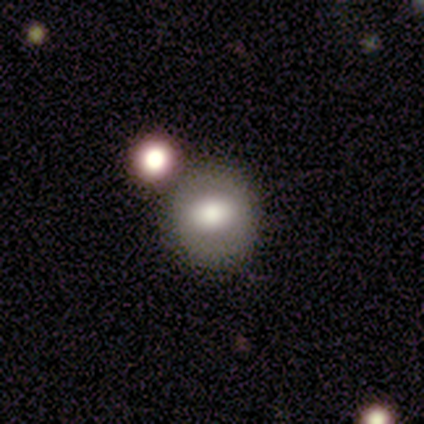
This is clearly a smooth galaxy (100%). How rounded: likely round (60%). Merging: clearly none (100%).